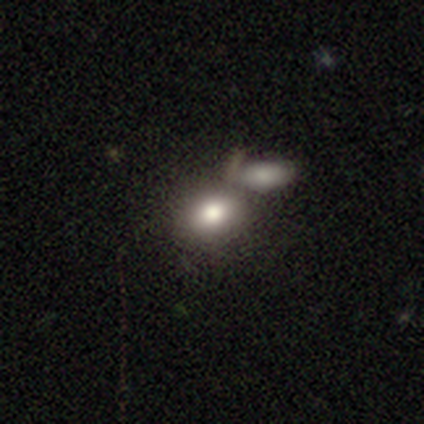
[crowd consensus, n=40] Overall: smooth (85%). How rounded: in between (65%; round 35%). Merging: merger (55%; none 22%).